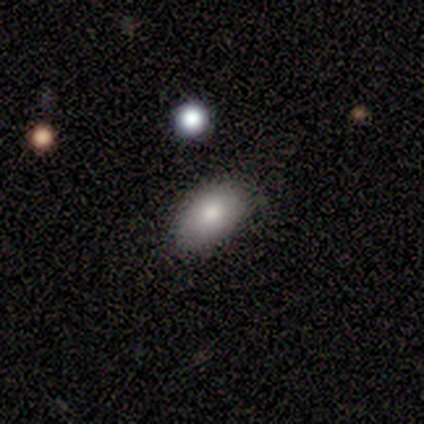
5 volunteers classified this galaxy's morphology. Overall: smooth (100%). How rounded: in between (100%). Merging: none (100%).